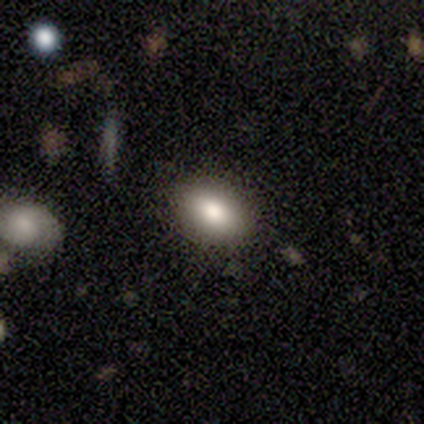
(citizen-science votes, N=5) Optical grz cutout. It shows a smooth galaxy with no disk features (60%) that is in between round and cigar-shaped (100%). Merging: none (100%).